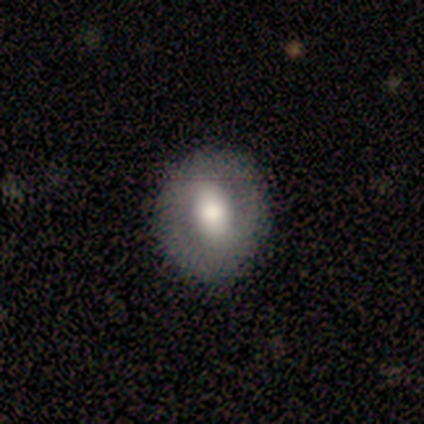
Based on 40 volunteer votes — Morphology: type=smooth (70%); roundness=round (61%); merging=none (67%).